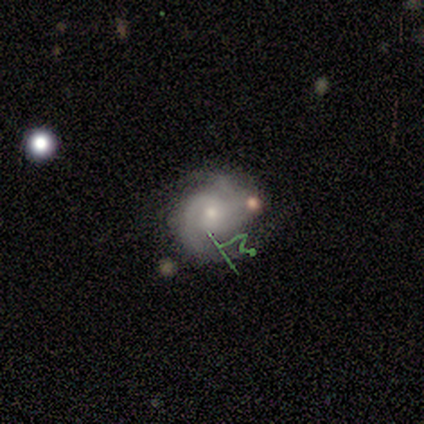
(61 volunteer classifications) A featured or disk galaxy (80%) with no bar (71%), 2 (75%) tight (55%) spiral arms (92%) and a small central bulge (65%). Merging: none (60%).